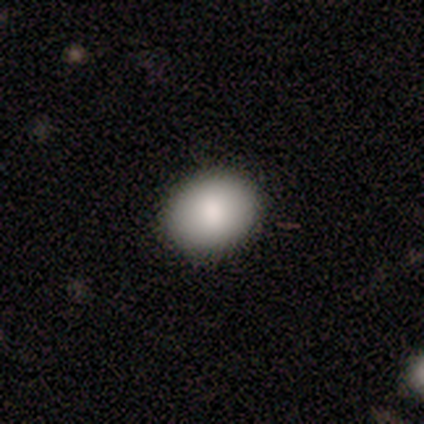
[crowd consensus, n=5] Smooth or featured?
  - smooth: 80% *
  - star or artifact: 20%
  - featured or disk: 0%
How rounded?
  - round: 50% * (tied)
  - in between: 50% * (tied)
  - cigar-shaped: 0%
Merging?
  - none: 100% *
  - minor disturbance: 0%
  - major disturbance: 0%
  - merger: 0%